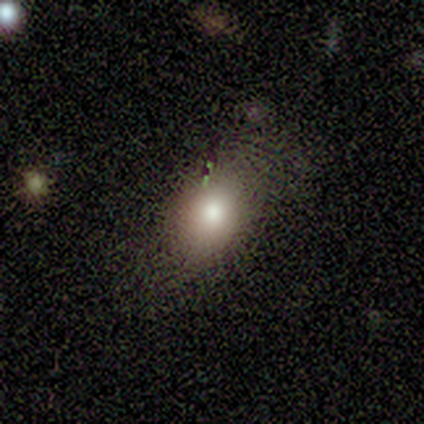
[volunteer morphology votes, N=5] smooth_or_featured: smooth (p=0.80) [alt: star or artifact p=0.20]
how_rounded: in between (p=1.00)
merging: none (p=0.75) [alt: minor disturbance p=0.25]